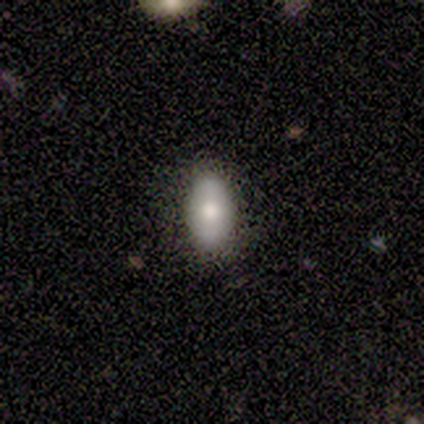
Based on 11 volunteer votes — Volunteers were most divided on "merging": none: 70%, minor disturbance: 20%, major disturbance: 10%, merger: 0%. More confident: how rounded — in between (100%); smooth or featured — smooth (82%).